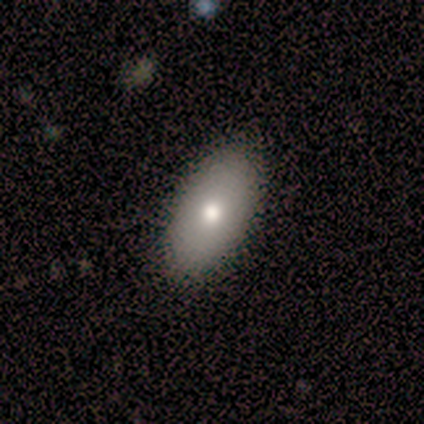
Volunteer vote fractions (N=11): Smooth or featured?
  - smooth: 73% *
  - featured or disk: 27%
  - star or artifact: 0%
How rounded?
  - in between: 88% *
  - round: 12%
  - cigar-shaped: 0%
Merging?
  - none: 100% *
  - minor disturbance: 0%
  - major disturbance: 0%
  - merger: 0%